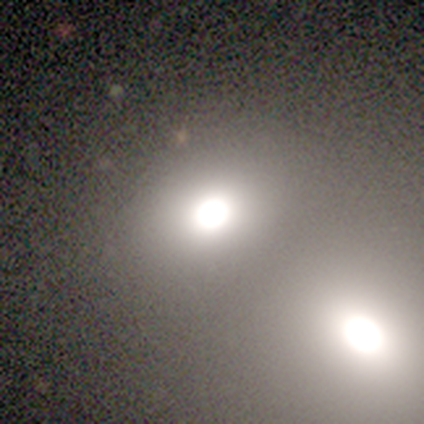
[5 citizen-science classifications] Q: Smooth or featured?
A: smooth (80%); runner-up: star or artifact (20%)
Q: How rounded?
A: in between (75%); runner-up: round (25%)
Q: Merging?
A: none (50%); runner-up: major disturbance (25%)